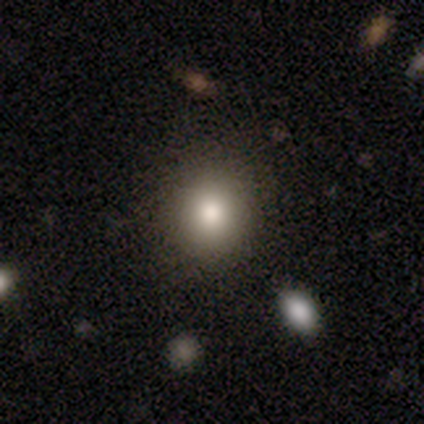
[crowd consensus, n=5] Smooth or featured: smooth — 100%
How rounded: round — 80% (in between — 20%)
Merging: none — 100%